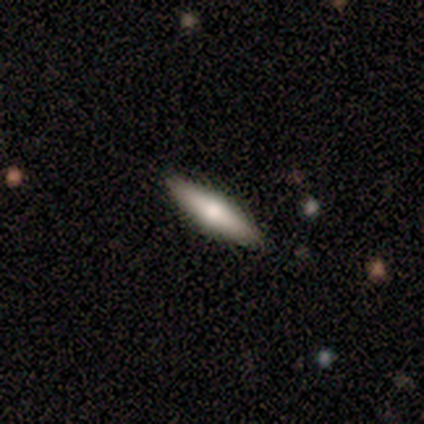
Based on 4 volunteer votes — Overall: smooth (75%). How rounded: in between (67%; cigar-shaped 33%). Merging: none (100%).